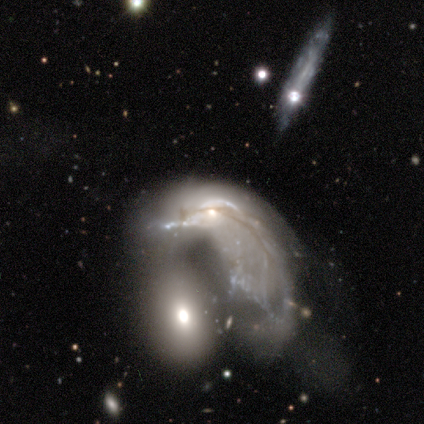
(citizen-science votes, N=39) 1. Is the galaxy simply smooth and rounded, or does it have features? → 62% featured or disk, 26% smooth, 13% star or artifact.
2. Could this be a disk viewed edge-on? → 96% no, 4% yes.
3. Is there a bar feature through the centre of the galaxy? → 83% no, 13% weak, 4% strong.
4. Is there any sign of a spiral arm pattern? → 91% no, 9% yes.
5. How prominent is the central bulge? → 52% none, 26% small, 22% moderate, 0% dominant, 0% large.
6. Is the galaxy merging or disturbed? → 44% merger, 38% major disturbance, 18% none, 0% minor disturbance.